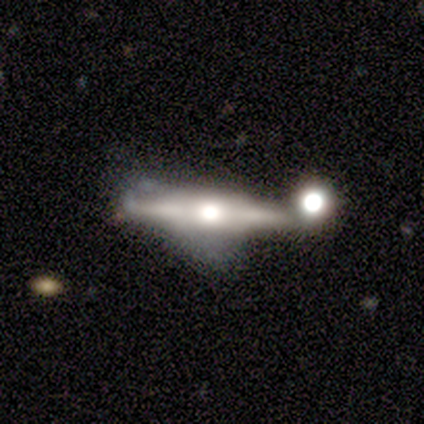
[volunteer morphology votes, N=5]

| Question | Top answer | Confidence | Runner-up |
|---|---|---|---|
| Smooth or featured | featured or disk | 80% | smooth (20%) |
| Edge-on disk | yes | 100% | — |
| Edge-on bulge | rounded | 75% | boxy (25%) |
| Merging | none | 60% | minor disturbance (20%) |